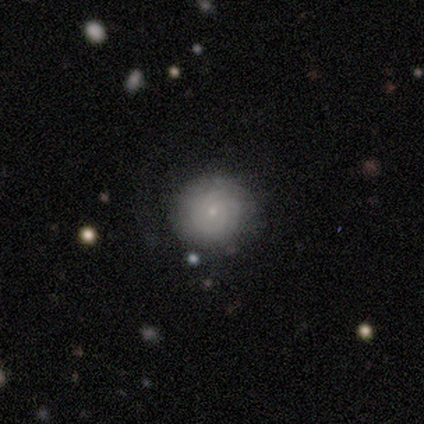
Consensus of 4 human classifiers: This is likely a featured or disk galaxy (75%). It is clearly not viewed edge-on (100%). Bar: likely weak (67%). Spiral arm pattern: clearly yes (100%). Spiral arm count: marginally 1 (33%, tied with 3 and can't tell). Spiral winding: marginally tight (33%, tied with medium and loose). Central bulge: clearly small (100%). Merging: likely none (75%).